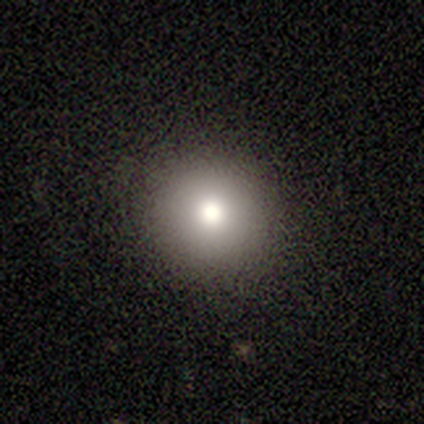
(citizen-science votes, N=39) smooth 74%, featured or disk 18%, star or artifact 8%. Down the decision tree: how rounded — round (93%); merging — none (92%).